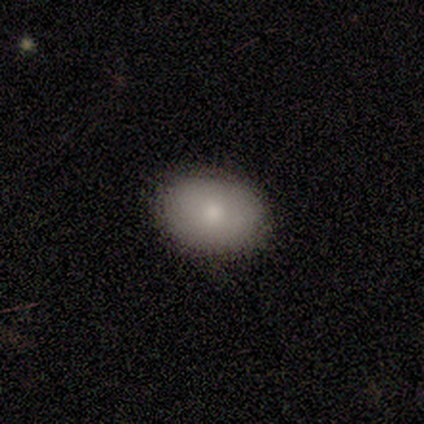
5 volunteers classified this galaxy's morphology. Smooth or featured? 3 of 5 (60%) said smooth. How rounded? 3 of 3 (100%) said in between. Merging? 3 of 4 (75%) said none.